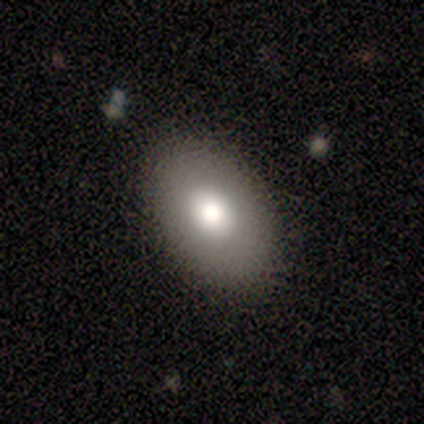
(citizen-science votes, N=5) Smooth or featured? 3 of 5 (60%) said smooth. How rounded? 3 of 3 (100%) said in between. Merging? 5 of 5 (100%) said none.